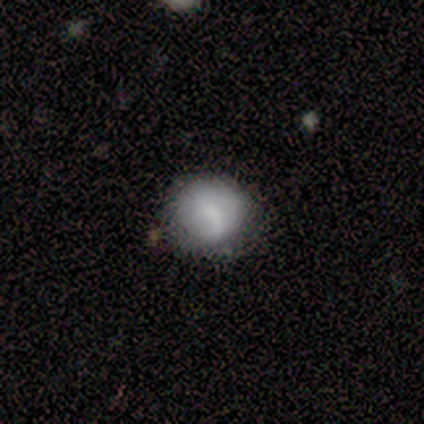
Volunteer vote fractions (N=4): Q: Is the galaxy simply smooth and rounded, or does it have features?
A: smooth — 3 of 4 (75%).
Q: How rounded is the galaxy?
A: round — 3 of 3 (100%).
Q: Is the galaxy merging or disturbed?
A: none — 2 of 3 (67%).